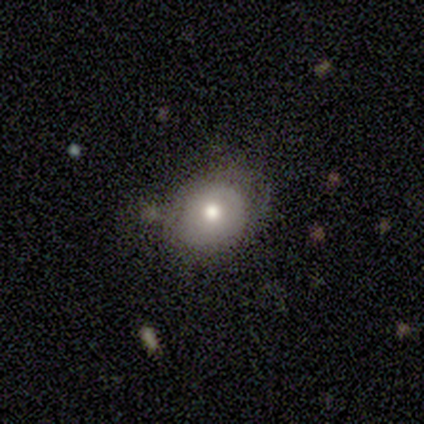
featured or disk 80%, smooth 20%, star or artifact 0%. Down the decision tree: edge-on disk — no (100%); bar — no (100%); spiral arms — no (75%); bulge size — moderate (100%); merging — minor disturbance (60%).